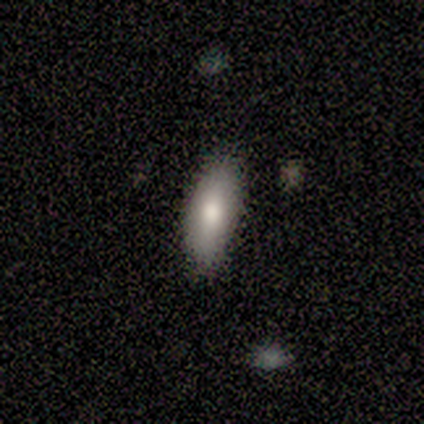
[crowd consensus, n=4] This appears to be a smooth galaxy with no disk features (50%) that is in between round and cigar-shaped (100%). Merging: none (100%).